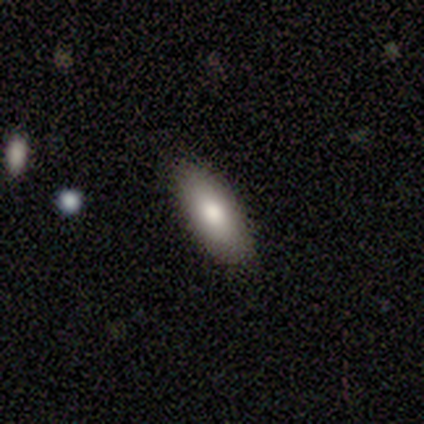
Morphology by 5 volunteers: smooth 80%, featured or disk 20%, star or artifact 0%. Down the decision tree: how rounded — in between (50%, tied with cigar-shaped); merging — none (100%).